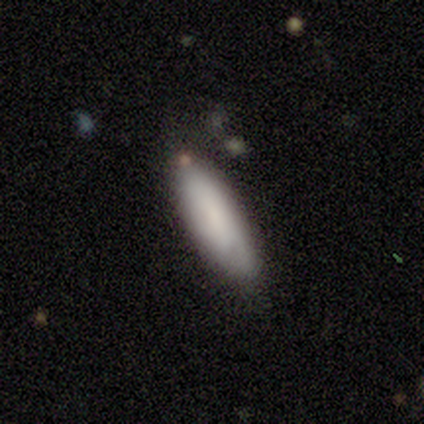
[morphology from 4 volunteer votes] Smooth or featured? smooth (75%)
How rounded? in between (100%)
Merging? none (75%)